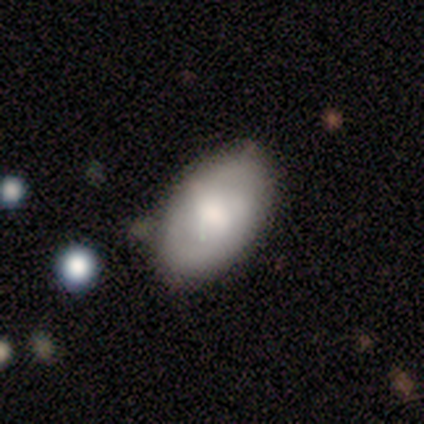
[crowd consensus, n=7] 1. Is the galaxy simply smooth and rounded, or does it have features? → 71% smooth, 14% featured or disk, 14% star or artifact.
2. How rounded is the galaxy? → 100% in between, 0% round, 0% cigar-shaped.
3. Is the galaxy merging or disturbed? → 83% none, 17% minor disturbance, 0% major disturbance, 0% merger.